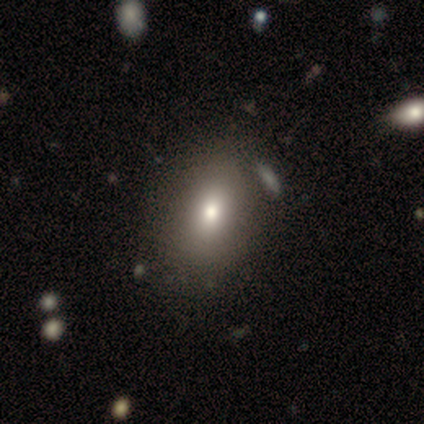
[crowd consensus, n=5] This appears to be a smooth galaxy with no disk features (80%) that is in between round and cigar-shaped (100%). Merging: none (80%).